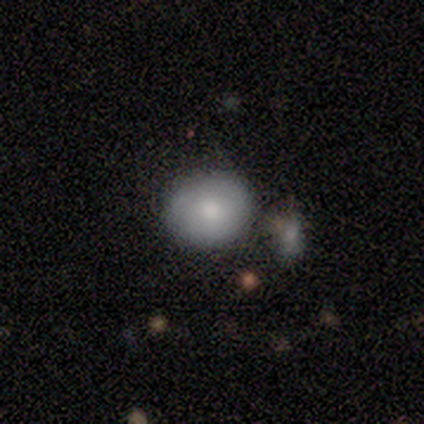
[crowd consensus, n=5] A smooth galaxy with no disk features (60%) that is round (100%). Merging: none (50%).